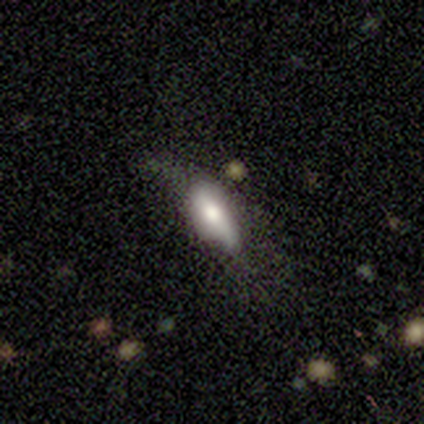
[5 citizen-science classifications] A smooth galaxy with no disk features (40%, tied with featured or disk) that is in between round and cigar-shaped (100%).

Vote fractions:
- Smooth or featured? smooth: 40% (tied) / featured or disk: 40% (tied) / star or artifact: 20%
- How rounded? in between: 100% / round: 0% / cigar-shaped: 0%
- Merging? minor disturbance: 75% / major disturbance: 25% / none: 0% / merger: 0%